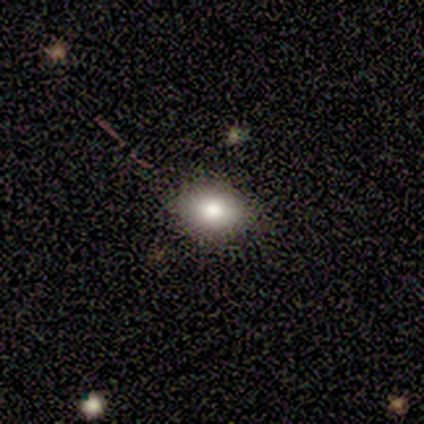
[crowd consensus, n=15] This is likely a smooth galaxy (67%). How rounded: likely in between (70%). Merging: clearly none (86%).